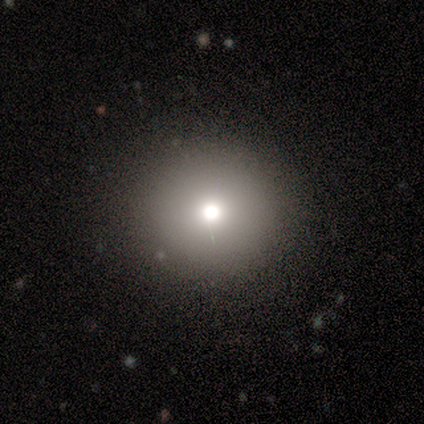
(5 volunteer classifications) A smooth galaxy with no disk features (100%) that is round (100%).

Vote fractions:
- Smooth or featured? smooth: 100% / featured or disk: 0% / star or artifact: 0%
- How rounded? round: 100% / in between: 0% / cigar-shaped: 0%
- Merging? none: 100% / minor disturbance: 0% / major disturbance: 0% / merger: 0%